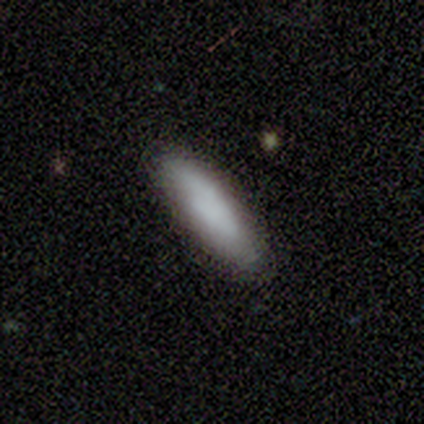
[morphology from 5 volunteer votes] A smooth galaxy with no disk features (100%) that is cigar-shaped (80%).

Vote fractions:
- Smooth or featured? smooth: 100% / featured or disk: 0% / star or artifact: 0%
- How rounded? cigar-shaped: 80% / in between: 20% / round: 0%
- Merging? none: 80% / major disturbance: 20% / minor disturbance: 0% / merger: 0%